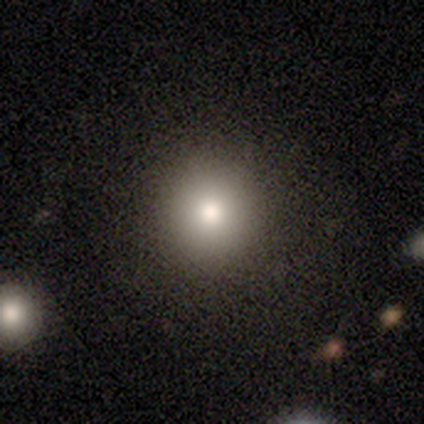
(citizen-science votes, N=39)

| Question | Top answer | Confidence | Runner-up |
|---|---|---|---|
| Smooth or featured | smooth | 79% | star or artifact (13%) |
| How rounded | round | 87% | in between (13%) |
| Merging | none | 85% | minor disturbance (15%) |